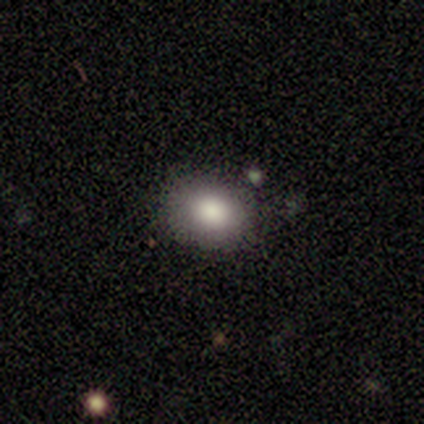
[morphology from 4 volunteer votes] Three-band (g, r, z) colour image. It shows a smooth galaxy with no disk features (100%) that is in between round and cigar-shaped (75%). Merging: none (75%).